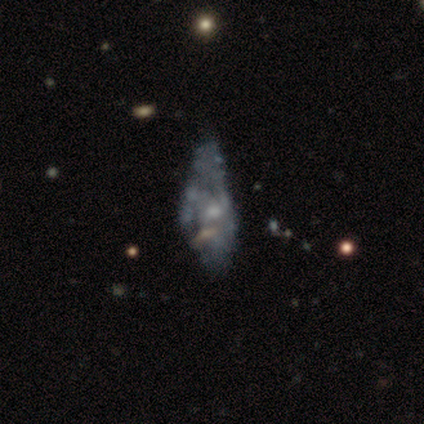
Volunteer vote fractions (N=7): Smooth or featured?
  - featured or disk: 71% *
  - smooth: 29%
  - star or artifact: 0%
Edge-on disk?
  - no: 100% *
  - yes: 0%
Bar?
  - no: 100% *
  - strong: 0%
  - weak: 0%
Spiral arms?
  - no: 100% *
  - yes: 0%
Bulge size?
  - small: 60% *
  - moderate: 40%
  - dominant: 0%
  - large: 0%
  - none: 0%
Merging?
  - major disturbance: 57% *
  - minor disturbance: 29%
  - merger: 14%
  - none: 0%